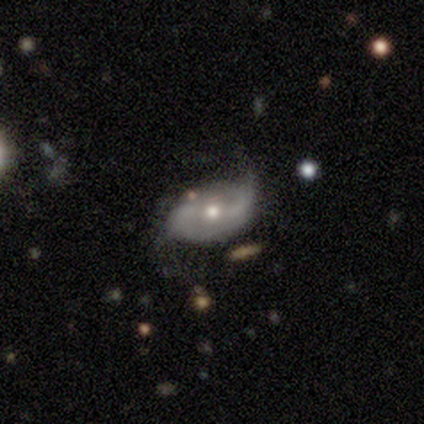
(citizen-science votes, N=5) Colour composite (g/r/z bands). It shows a featured or disk galaxy (80%) with a weak bar (50%), 2 (100%) loose (75%) spiral arms (100%) and a moderate central bulge (75%). Merging: none (80%).